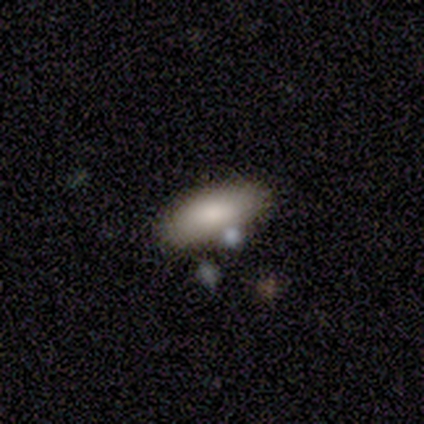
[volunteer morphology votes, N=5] smooth 80%, star or artifact 20%, featured or disk 0%. Down the decision tree: how rounded — in between (75%); merging — none (50%).